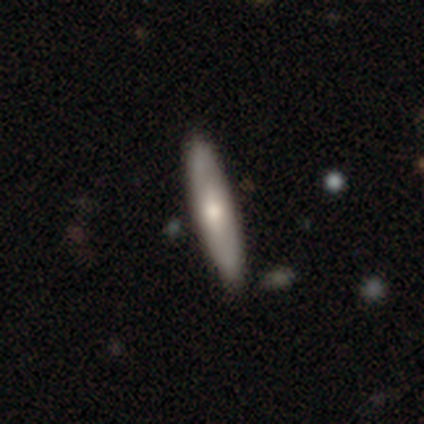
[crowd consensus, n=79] Volunteers were most divided on "smooth or featured": smooth: 54%, featured or disk: 42%, star or artifact: 4%. Remaining: how rounded — cigar-shaped (88%); merging — none (42%).